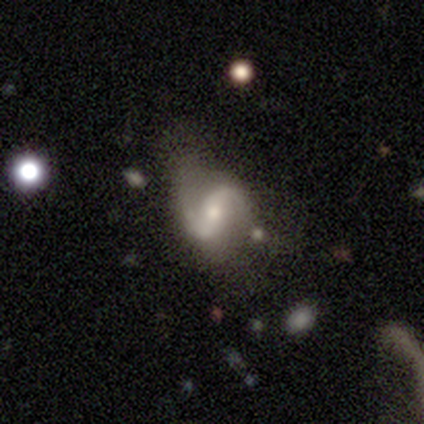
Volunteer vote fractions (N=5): Smooth or featured: featured or disk — 100%
Edge-on disk: no — 100%
Bar: strong — 80% (weak — 20%)
Spiral arms: yes — 80% (no — 20%)
Spiral winding: medium — 50% (tied with loose — 50%)
Spiral arm count: 2 — 75% (1 — 25%)
Bulge size: moderate — 60% (large — 20%)
Merging: none — 60% (major disturbance — 40%)